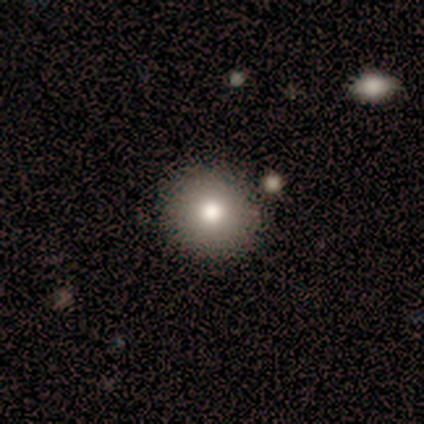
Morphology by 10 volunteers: A smooth galaxy with no disk features (100%) that is round (90%).

Vote fractions:
- Smooth or featured? smooth: 100% / featured or disk: 0% / star or artifact: 0%
- How rounded? round: 90% / in between: 10% / cigar-shaped: 0%
- Merging? none: 90% / minor disturbance: 10% / major disturbance: 0% / merger: 0%